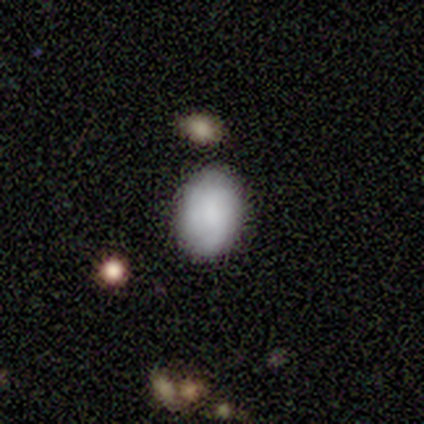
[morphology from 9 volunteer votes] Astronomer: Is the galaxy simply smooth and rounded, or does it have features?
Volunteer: smooth — 67%.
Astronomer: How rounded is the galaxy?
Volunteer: in between — 100%.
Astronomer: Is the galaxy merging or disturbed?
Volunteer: none — 89%.